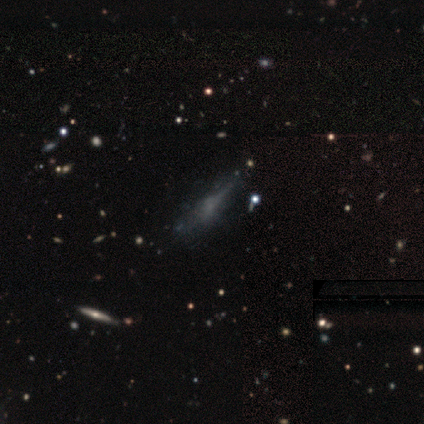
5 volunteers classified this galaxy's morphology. A featured or disk galaxy (60%) viewed edge-on (67%) with a rounded central bulge (100%).

Vote fractions:
- Smooth or featured? featured or disk: 60% / smooth: 40% / star or artifact: 0%
- Edge-on disk? yes: 67% / no: 33%
- Edge-on bulge? rounded: 100% / boxy: 0% / none: 0%
- Merging? none: 60% / minor disturbance: 20% / major disturbance: 20% / merger: 0%